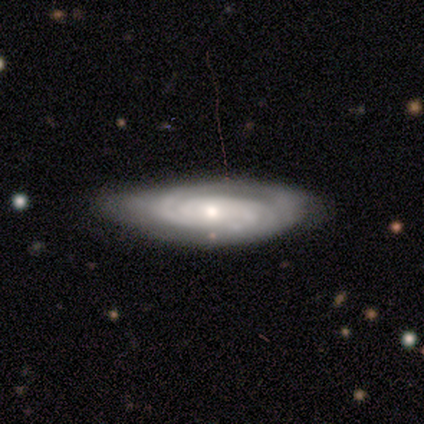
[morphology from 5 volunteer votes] This appears to be a featured or disk galaxy (100%) with no bar (80%), tight (60%) spiral arms (100%) and a small central bulge (60%). Merging: minor disturbance (60%).